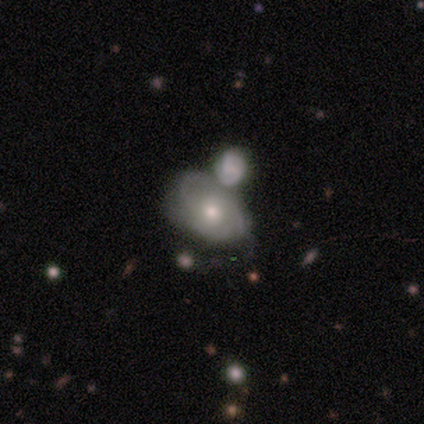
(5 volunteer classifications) Overall: featured or disk (100%). Edge-on disk: no (100%). Bar: no (60%; strong 20%). Spiral arms: no (60%; yes 40%). Bulge size: small (60%; moderate 20%). Merging: merger (60%; none 40%).